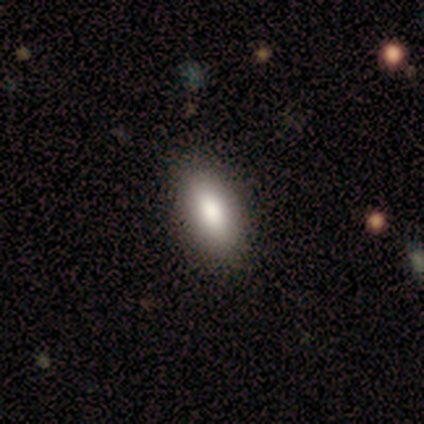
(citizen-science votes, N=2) Q: Smooth or featured?
A: smooth (100%)
Q: How rounded?
A: in between (100%)
Q: Merging?
A: none (50%); tied with: merger (50%)